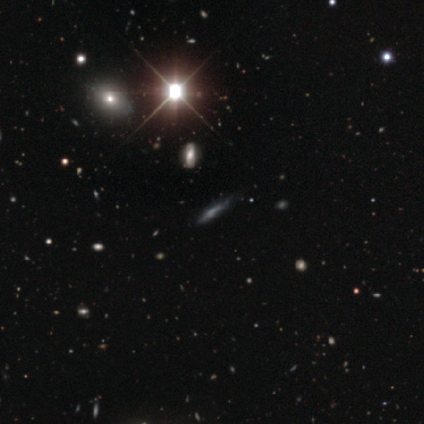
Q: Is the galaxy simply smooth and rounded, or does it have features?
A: star or artifact — 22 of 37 (59%).